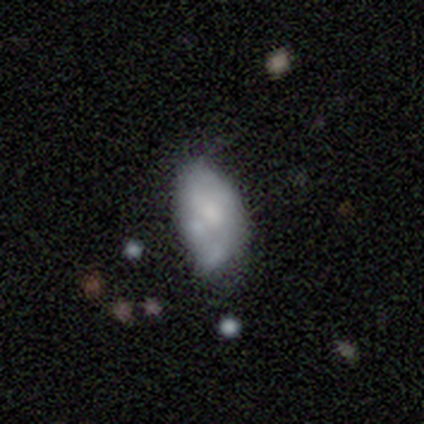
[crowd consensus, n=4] Overall: featured or disk (50%; smooth 25%). Edge-on disk: no (100%). Bar: weak (50%, tied with no). Spiral arms: no (100%). Bulge size: moderate (100%). Merging: minor disturbance (33%, tied with major disturbance and merger).